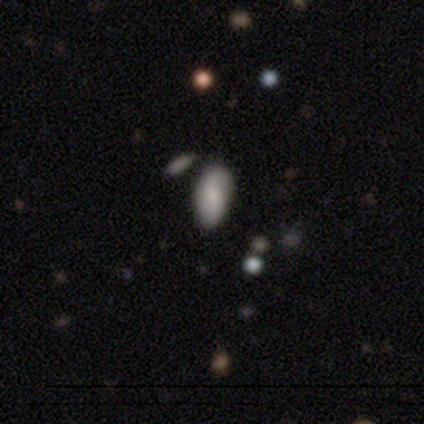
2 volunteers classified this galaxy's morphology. A smooth galaxy with no disk features (100%) that is in between round and cigar-shaped (100%).

Vote fractions:
- Smooth or featured? smooth: 100% / featured or disk: 0% / star or artifact: 0%
- How rounded? in between: 100% / round: 0% / cigar-shaped: 0%
- Merging? none: 100% / minor disturbance: 0% / major disturbance: 0% / merger: 0%